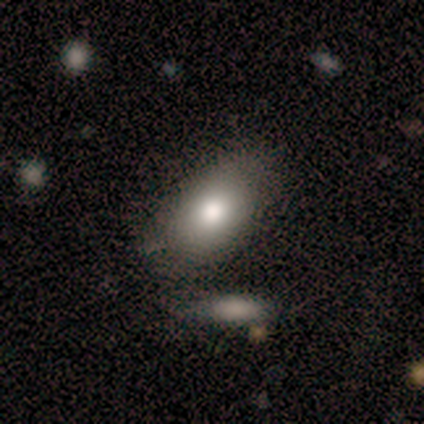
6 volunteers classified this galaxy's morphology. Volunteers were most divided on "merging": minor disturbance: 67%, none: 33%, major disturbance: 0%, merger: 0%. More confident: how rounded — in between (100%); smooth or featured — smooth (83%).